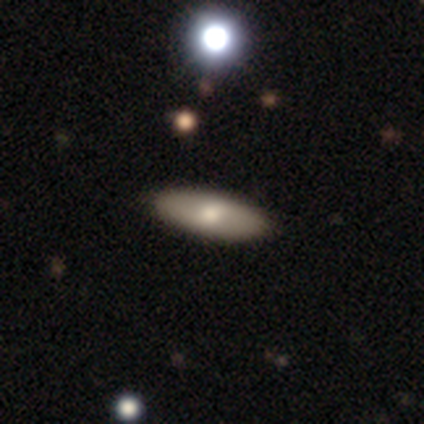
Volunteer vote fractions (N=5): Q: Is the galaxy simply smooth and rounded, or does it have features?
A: smooth — 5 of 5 (100%).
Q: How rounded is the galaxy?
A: in between — 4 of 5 (80%).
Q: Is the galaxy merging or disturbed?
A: none — 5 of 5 (100%).